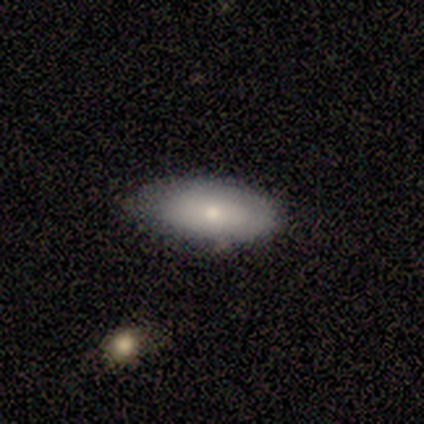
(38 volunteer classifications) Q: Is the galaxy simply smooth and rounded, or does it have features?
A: smooth — 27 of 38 (71%).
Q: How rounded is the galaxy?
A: in between — 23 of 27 (85%).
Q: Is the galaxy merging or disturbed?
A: none — 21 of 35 (60%).